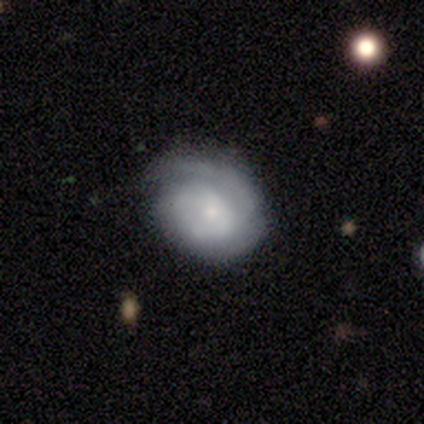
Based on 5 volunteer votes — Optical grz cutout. It shows a featured or disk galaxy (60%) with no bar (100%), tight (50%, tied with medium) spiral arms (100%) and a small central bulge (100%). Merging: minor disturbance (75%).